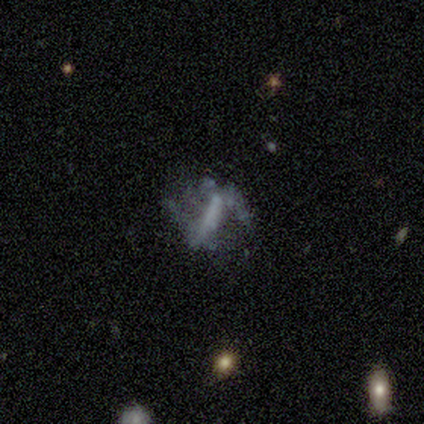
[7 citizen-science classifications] Smooth or featured?
  - featured or disk: 57% *
  - star or artifact: 29%
  - smooth: 14%
Edge-on disk?
  - no: 75% *
  - yes: 25%
Bar?
  - no: 67% *
  - strong: 33%
  - weak: 0%
Spiral arms?
  - no: 100% *
  - yes: 0%
Bulge size?
  - none: 100% *
  - dominant: 0%
  - large: 0%
  - moderate: 0%
  - small: 0%
Merging?
  - major disturbance: 60% *
  - none: 20%
  - merger: 20%
  - minor disturbance: 0%